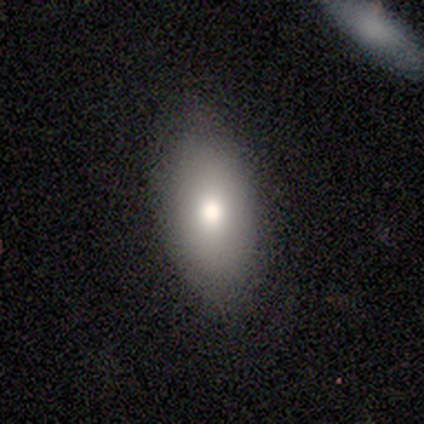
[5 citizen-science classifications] smooth-or-featured: smooth: 100% | featured or disk: 0% | star or artifact: 0%
  how-rounded: in between: 100% | round: 0% | cigar-shaped: 0%
  merging: none: 80% | minor disturbance: 20% | major disturbance: 0% | merger: 0%